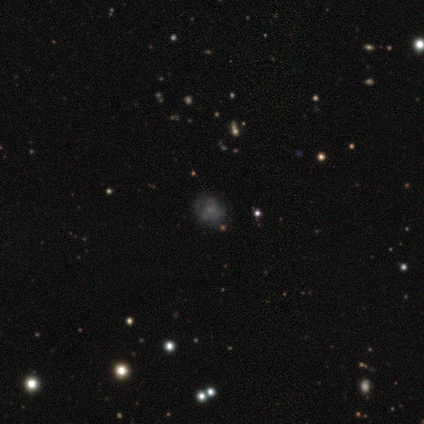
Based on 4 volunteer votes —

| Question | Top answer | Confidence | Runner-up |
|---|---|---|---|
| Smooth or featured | star or artifact | 50% | smooth (25%) |